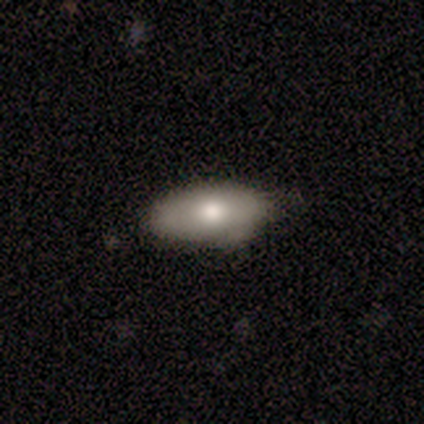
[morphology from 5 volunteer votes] A smooth galaxy with no disk features (60%) that is in between round and cigar-shaped (100%). Merging: none (100%).